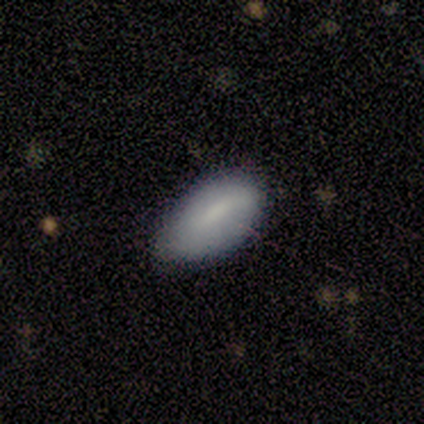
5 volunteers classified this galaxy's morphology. This is likely a smooth galaxy (60%). How rounded: clearly in between (100%). Merging: marginally none (33%, tied with minor disturbance and major disturbance).